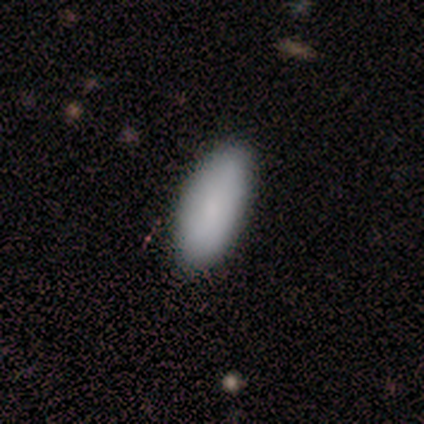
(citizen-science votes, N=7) Smooth or featured? 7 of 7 (100%) said smooth. How rounded? 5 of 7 (71%) said in between. Merging? 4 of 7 (57%) said none.